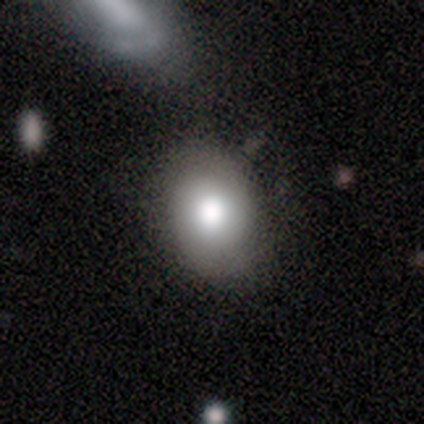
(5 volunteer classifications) This appears to be a featured or disk galaxy (80%) with no bar (75%), 2 (50%, tied with can't tell) tight (50%, tied with medium) spiral arms (50%, tied with no) and a large central bulge (50%, tied with moderate). Merging: none (75%).